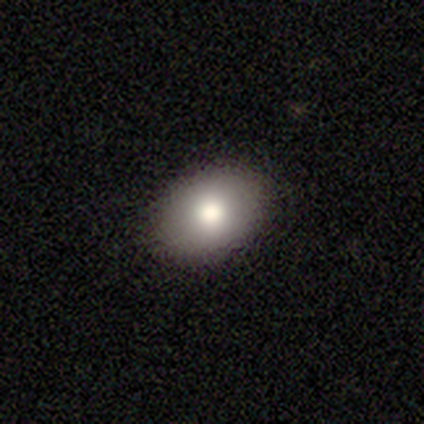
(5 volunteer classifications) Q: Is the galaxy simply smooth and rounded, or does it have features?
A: smooth — 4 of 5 (80%).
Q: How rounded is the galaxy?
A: in between — 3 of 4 (75%).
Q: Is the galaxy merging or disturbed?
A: none — 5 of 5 (100%).